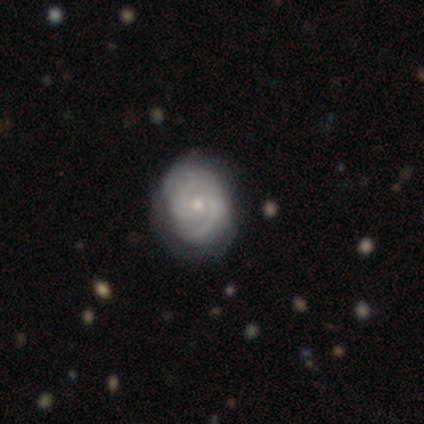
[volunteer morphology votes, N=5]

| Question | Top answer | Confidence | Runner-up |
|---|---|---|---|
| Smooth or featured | featured or disk | 100% | — |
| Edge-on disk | no | 100% | — |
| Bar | no | 100% | — |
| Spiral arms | yes | 100% | — |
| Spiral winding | medium | 60% | tight (40%) |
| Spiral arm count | can't tell | 60% | 2 (20%) |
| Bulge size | small | 60% | moderate (40%) |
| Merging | none | 100% | — |